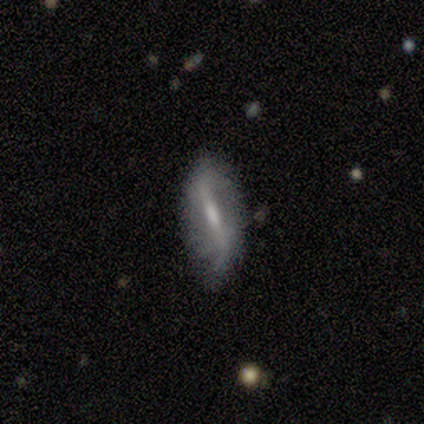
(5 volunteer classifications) A smooth galaxy with no disk features (60%) that is cigar-shaped (67%). Merging: none (60%).